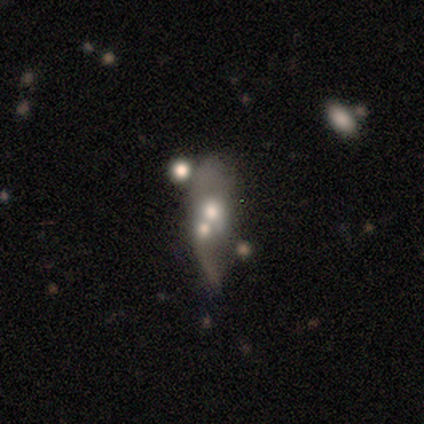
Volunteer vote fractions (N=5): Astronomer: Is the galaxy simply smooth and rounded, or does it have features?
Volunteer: smooth — 40%, tied with featured or disk at 40%.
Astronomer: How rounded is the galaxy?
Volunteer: in between — 50%, tied with cigar-shaped at 50%.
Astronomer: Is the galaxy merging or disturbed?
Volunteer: merger — 50%.